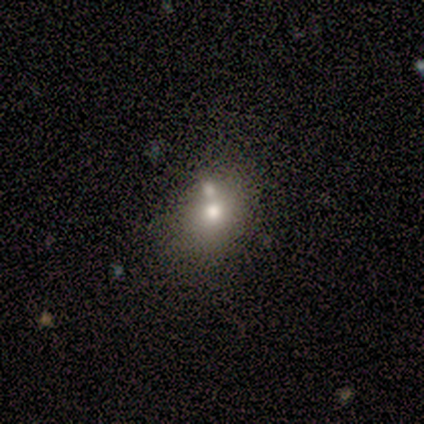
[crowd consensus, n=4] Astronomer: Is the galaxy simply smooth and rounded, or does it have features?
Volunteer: smooth — 75%.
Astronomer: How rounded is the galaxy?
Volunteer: round — 67%.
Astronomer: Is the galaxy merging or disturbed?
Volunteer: none — 50%, tied with merger at 50%.